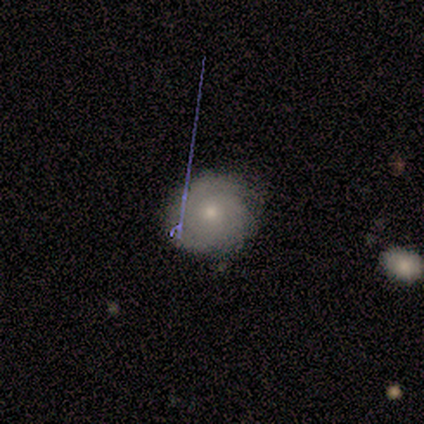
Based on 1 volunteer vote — Smooth or featured?
  - featured or disk: 100% *
  - smooth: 0%
  - star or artifact: 0%
Edge-on disk?
  - no: 100% *
  - yes: 0%
Bar?
  - no: 100% *
  - strong: 0%
  - weak: 0%
Spiral arms?
  - no: 100% *
  - yes: 0%
Bulge size?
  - small: 100% *
  - dominant: 0%
  - large: 0%
  - moderate: 0%
  - none: 0%
Merging?
  - none: 100% *
  - minor disturbance: 0%
  - major disturbance: 0%
  - merger: 0%